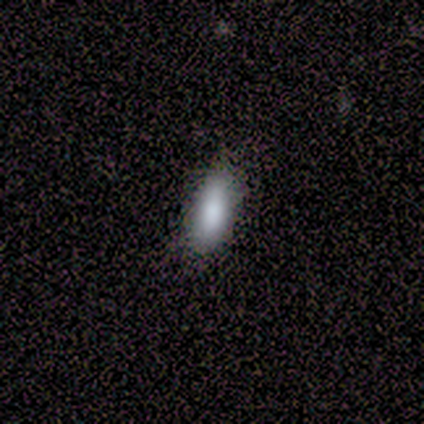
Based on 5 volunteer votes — Morphology: type=smooth (80%); roundness=in between (100%); merging=none (75%).